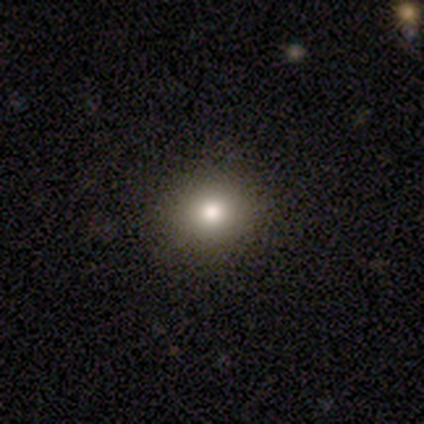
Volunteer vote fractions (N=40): A smooth galaxy with no disk features (85%) that is round (82%).

Vote fractions:
- Smooth or featured? smooth: 85% / star or artifact: 12% / featured or disk: 2%
- How rounded? round: 82% / in between: 18% / cigar-shaped: 0%
- Merging? none: 94% / minor disturbance: 3% / major disturbance: 3% / merger: 0%